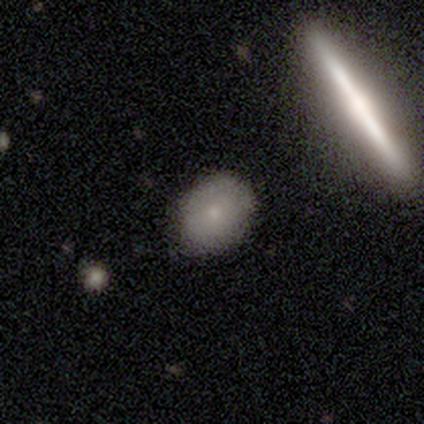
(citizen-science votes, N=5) Volunteers were most divided on "how rounded": in between: 75%, round: 25%, cigar-shaped: 0%. More confident: merging — none (100%); smooth or featured — smooth (80%).